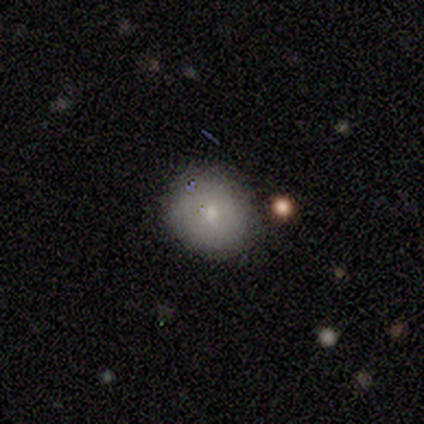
Smooth or featured? 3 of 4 (75%) said featured or disk. Edge-on disk? 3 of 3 (100%) said no. Bar? 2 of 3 (67%) said no. Spiral arms? 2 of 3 (67%) said no. Bulge size? 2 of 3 (67%) said small. Merging? 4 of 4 (100%) said none.